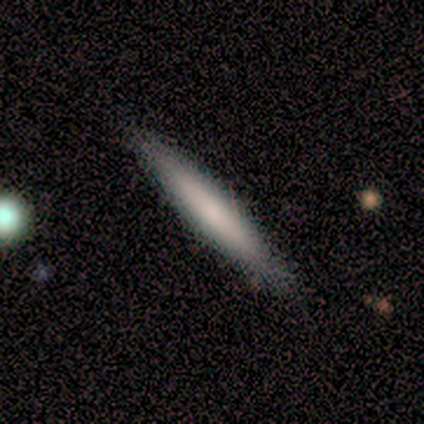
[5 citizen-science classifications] This appears to be a smooth galaxy with no disk features (80%) that is cigar-shaped (100%). Merging: none (100%).